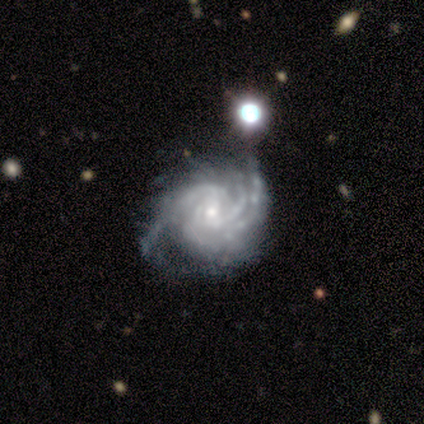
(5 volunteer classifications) featured or disk 100%, smooth 0%, star or artifact 0%. Down the decision tree: edge-on disk — no (100%); bar — no (80%); spiral arms — yes (100%); spiral arm count — 3 (60%); spiral winding — medium (60%); bulge size — small (100%); merging — none (80%).